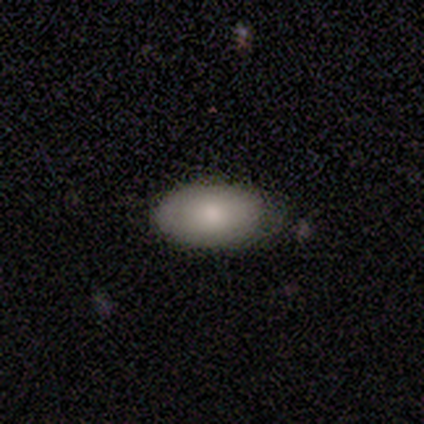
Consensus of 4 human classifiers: This appears to be a smooth galaxy with no disk features (75%) that is in between round and cigar-shaped (100%). Merging: none (75%).